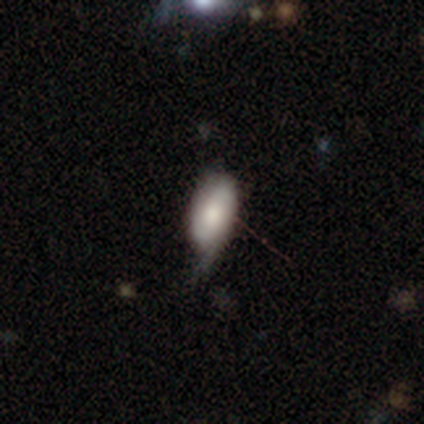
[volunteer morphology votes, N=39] Smooth or featured? 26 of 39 (67%) said smooth. How rounded? 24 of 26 (92%) said in between. Merging? 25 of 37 (68%) said minor disturbance.